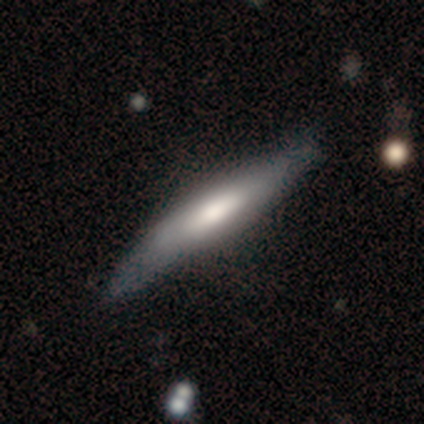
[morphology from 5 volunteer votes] smooth 60%, featured or disk 40%, star or artifact 0%. Down the decision tree: how rounded — cigar-shaped (100%); merging — none (80%).